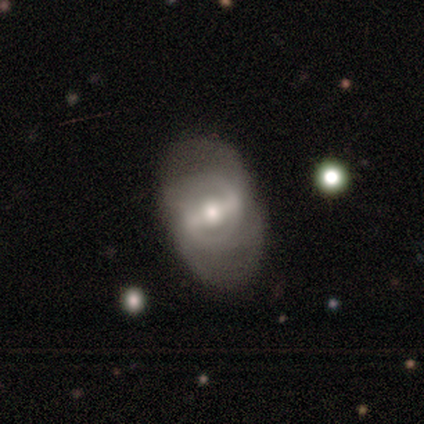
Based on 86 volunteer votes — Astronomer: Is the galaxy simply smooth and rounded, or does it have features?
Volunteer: featured or disk — 67%.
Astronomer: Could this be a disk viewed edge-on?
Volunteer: no — 98%.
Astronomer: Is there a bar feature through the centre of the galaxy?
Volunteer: strong — 51% (runner-up: weak, 30%).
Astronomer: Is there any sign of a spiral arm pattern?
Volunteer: yes — 61% (runner-up: no, 39%).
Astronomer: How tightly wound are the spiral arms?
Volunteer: medium — 54% (runner-up: tight, 31%).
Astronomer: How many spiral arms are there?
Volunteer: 2 — 49% (runner-up: can't tell, 40%).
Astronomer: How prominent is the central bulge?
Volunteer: moderate — 61%.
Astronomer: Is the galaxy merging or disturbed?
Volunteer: none — 70%.